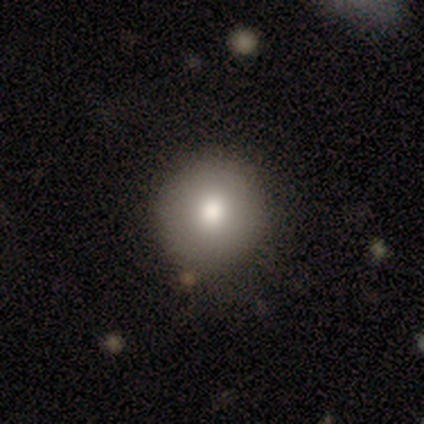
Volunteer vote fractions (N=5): smooth-or-featured: smooth: 80% | featured or disk: 20% | star or artifact: 0%
  how-rounded: round: 100% | in between: 0% | cigar-shaped: 0%
  merging: none: 80% | minor disturbance: 20% | major disturbance: 0% | merger: 0%